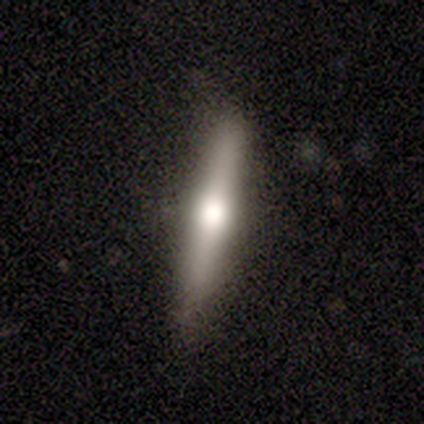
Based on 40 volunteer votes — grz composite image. It shows a featured or disk galaxy (65%) viewed edge-on (88%) with a rounded central bulge (83%). Merging: none (76%).